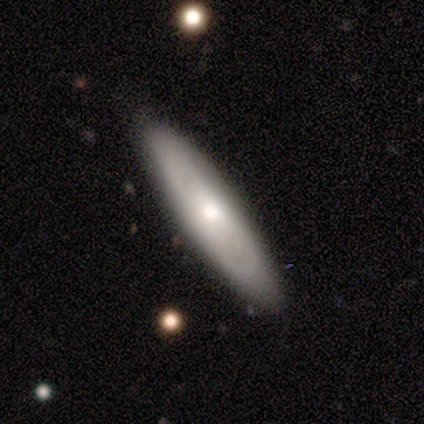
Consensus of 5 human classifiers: smooth_or_featured: smooth (p=0.60) [alt: featured or disk p=0.20]
how_rounded: cigar-shaped (p=0.67) [alt: in between p=0.33]
merging: none (p=1.00)